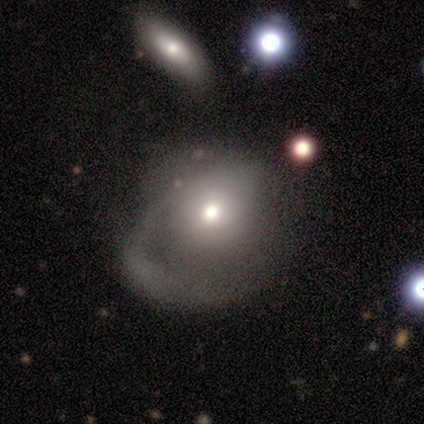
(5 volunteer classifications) Smooth or featured? 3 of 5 (60%) said featured or disk. Edge-on disk? 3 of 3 (100%) said no. Bar? 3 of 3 (100%) said no. Spiral arms? 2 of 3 (67%) said no. Bulge size? 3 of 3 (100%) said moderate. Merging? 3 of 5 (60%) said major disturbance.